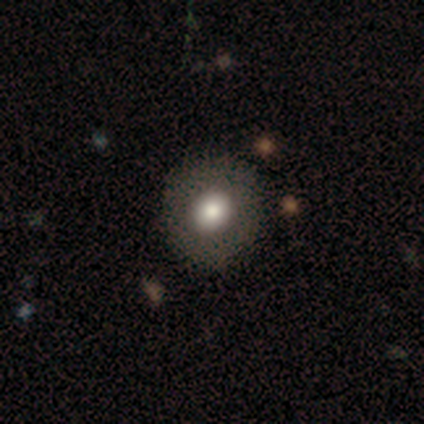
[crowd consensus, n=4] Overall: smooth (75%). How rounded: round (67%; in between 33%). Merging: none (75%).